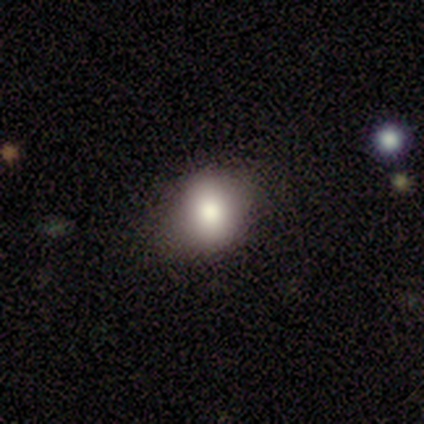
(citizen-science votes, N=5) Smooth or featured? smooth (80%)
How rounded? round (100%)
Merging? none (50%, tied with minor disturbance)